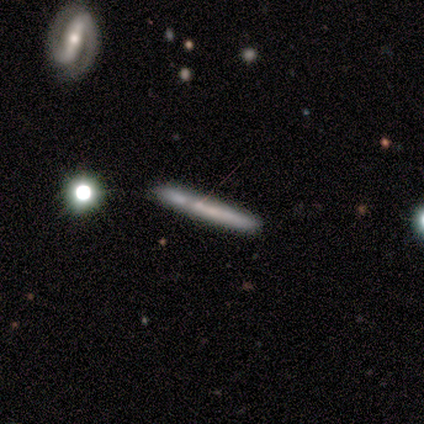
smooth 40% (tied), featured or disk 40% (tied), star or artifact 20%. Down the decision tree: how rounded — cigar-shaped (100%); merging — none (75%).